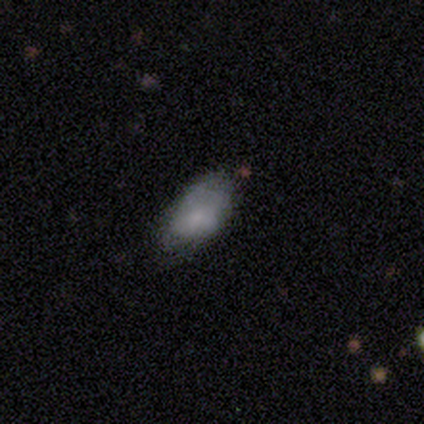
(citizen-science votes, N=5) Overall: smooth (60%; featured or disk 40%). How rounded: in between (67%; cigar-shaped 33%). Merging: none (60%; minor disturbance 20%).